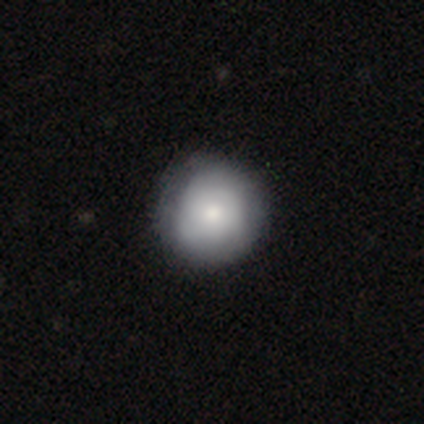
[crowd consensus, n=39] Smooth or featured: smooth — 72% (featured or disk — 26%)
How rounded: round — 93% (in between — 7%)
Merging: none — 74% (minor disturbance — 13%)